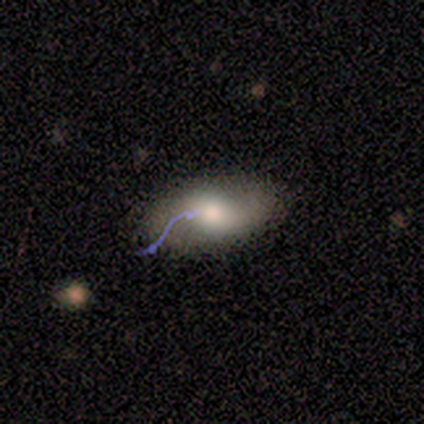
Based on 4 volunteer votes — Smooth or featured? 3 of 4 (75%) said smooth. How rounded? 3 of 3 (100%) said in between. Merging? 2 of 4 (50%) said none.